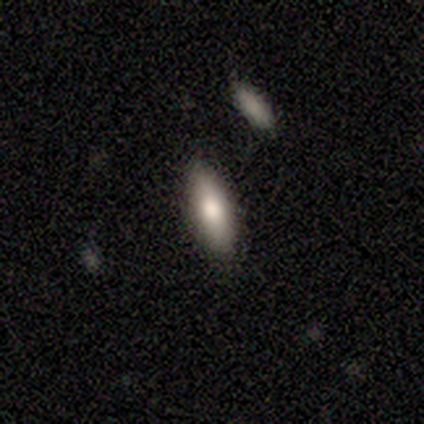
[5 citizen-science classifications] Overall: smooth (80%). How rounded: in between (75%). Merging: none (80%).